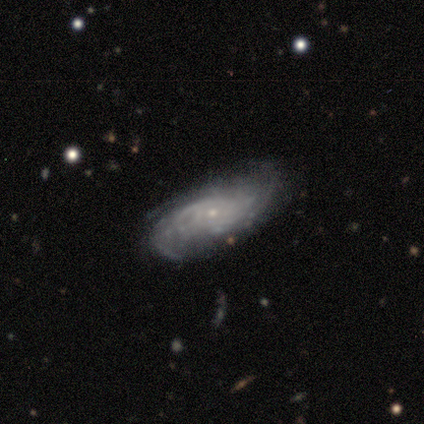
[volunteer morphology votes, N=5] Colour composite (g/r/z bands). It shows a featured or disk galaxy (100%) with no bar (80%), medium (60%) spiral arms (100%) and a small central bulge (100%). Merging: none (60%).